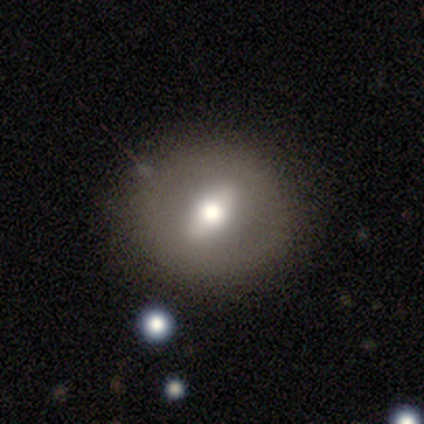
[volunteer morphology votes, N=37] smooth 51%, featured or disk 41%, star or artifact 8%. Down the decision tree: how rounded — round (63%); merging — none (97%).